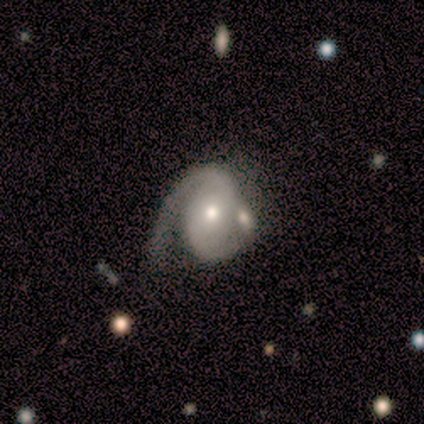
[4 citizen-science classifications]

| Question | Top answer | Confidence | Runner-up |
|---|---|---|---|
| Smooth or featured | featured or disk | 100% | — |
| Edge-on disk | no | 100% | — |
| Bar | no | 75% | weak (25%) |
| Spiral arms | yes | 75% | no (25%) |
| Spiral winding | tight | 67% | medium (33%) |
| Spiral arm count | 2 | 100% | — |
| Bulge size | moderate | 100% | — |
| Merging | none | 50% | major disturbance (25%) |